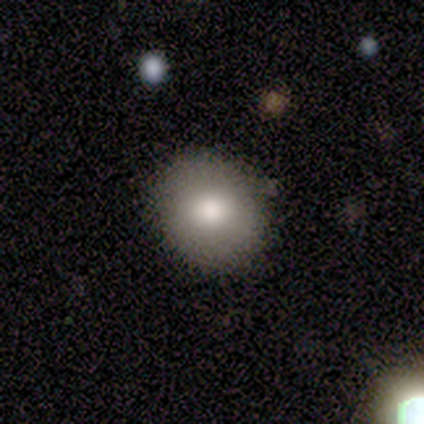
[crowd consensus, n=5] Morphology: type=smooth (80%); roundness=round (100%); merging=none (100%).